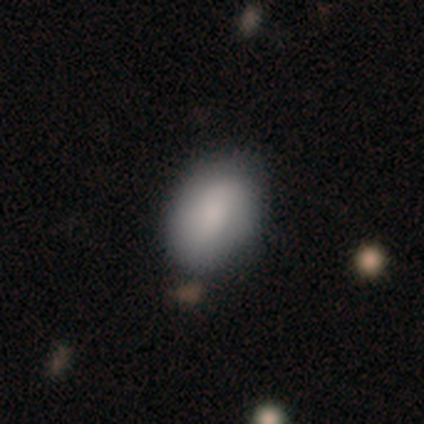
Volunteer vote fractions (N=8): Smooth or featured?
  - smooth: 88% *
  - star or artifact: 12%
  - featured or disk: 0%
How rounded?
  - in between: 71% *
  - round: 29%
  - cigar-shaped: 0%
Merging?
  - none: 71% *
  - minor disturbance: 29%
  - major disturbance: 0%
  - merger: 0%